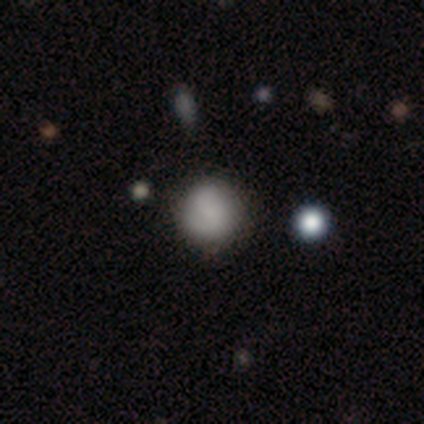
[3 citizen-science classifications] This appears to be a smooth galaxy with no disk features (100%) that is round (100%). Merging: none (100%).